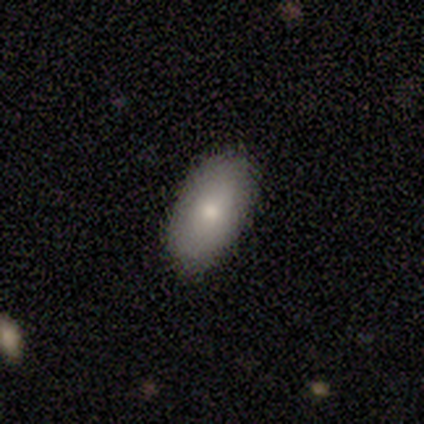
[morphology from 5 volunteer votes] Overall: smooth (40%, tied with featured or disk). How rounded: in between (100%). Merging: none (100%).